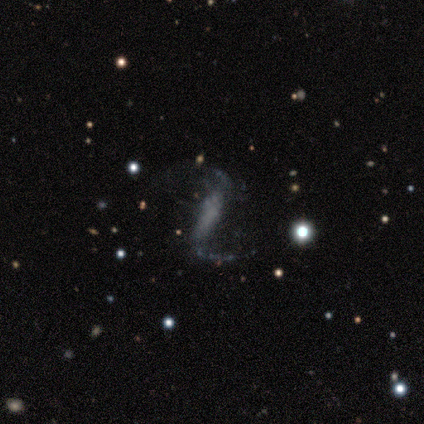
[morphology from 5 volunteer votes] smooth-or-featured: featured or disk: 80% | star or artifact: 20% | smooth: 0%
  disk-edge-on: no: 100% | yes: 0%
    bar: strong: 50% (tied) | weak: 50% (tied) | no: 0%
    has-spiral-arms: yes: 75% | no: 25%
      spiral-winding: loose: 100% | tight: 0% | medium: 0%
      spiral-arm-count: 2: 100% | 1: 0% | 3: 0% | 4: 0% | more than 4: 0% | can't tell: 0%
    bulge-size: none: 100% | dominant: 0% | large: 0% | moderate: 0% | small: 0%
  merging: none: 75% | major disturbance: 25% | minor disturbance: 0% | merger: 0%